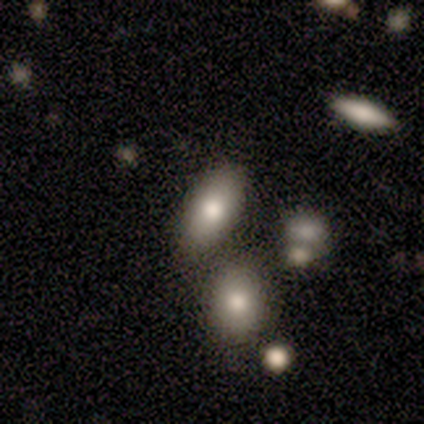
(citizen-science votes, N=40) smooth_or_featured: smooth (p=0.65) [alt: featured or disk p=0.23]
how_rounded: in between (p=0.85) [alt: cigar-shaped p=0.12]
merging: none (p=0.63) [alt: merger p=0.29]